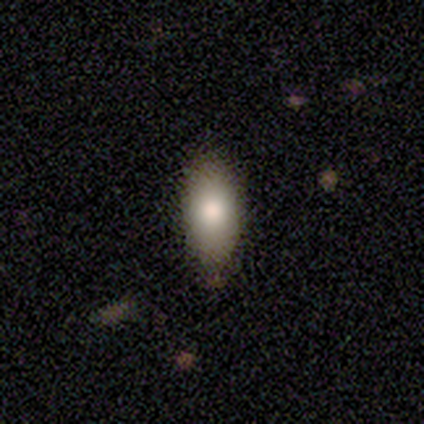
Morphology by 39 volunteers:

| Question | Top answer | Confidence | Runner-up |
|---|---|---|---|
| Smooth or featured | smooth | 77% | featured or disk (18%) |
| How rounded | in between | 83% | cigar-shaped (13%) |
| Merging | none | 57% | minor disturbance (5%) |